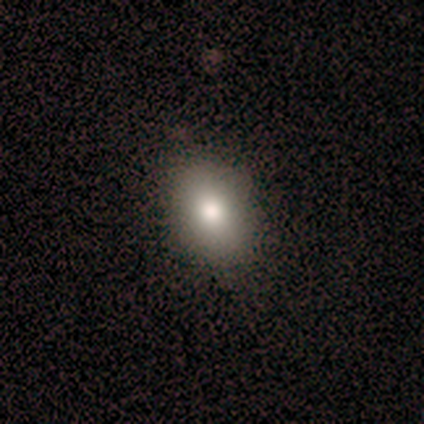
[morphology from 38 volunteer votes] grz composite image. It shows a smooth galaxy with no disk features (87%) that is in between round and cigar-shaped (79%). Merging: none (54%).